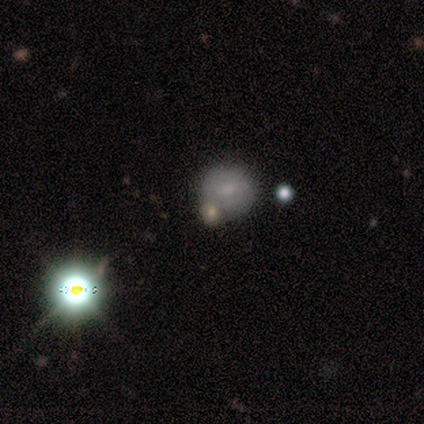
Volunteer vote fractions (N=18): A smooth galaxy with no disk features (50%) that is round (89%).

Vote fractions:
- Smooth or featured? smooth: 50% / star or artifact: 33% / featured or disk: 17%
- How rounded? round: 89% / in between: 11% / cigar-shaped: 0%
- Merging? none: 42% / merger: 33% / minor disturbance: 17% / major disturbance: 8%